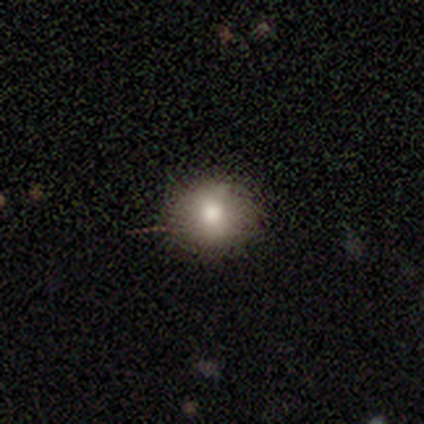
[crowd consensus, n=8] Smooth or featured?
  - smooth: 75% *
  - featured or disk: 12%
  - star or artifact: 12%
How rounded?
  - round: 83% *
  - in between: 17%
  - cigar-shaped: 0%
Merging?
  - none: 100% *
  - minor disturbance: 0%
  - major disturbance: 0%
  - merger: 0%